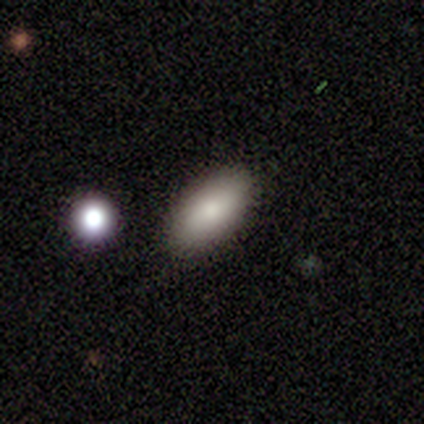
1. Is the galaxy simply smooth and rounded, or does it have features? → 100% smooth, 0% featured or disk, 0% star or artifact.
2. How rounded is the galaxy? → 86% in between, 14% cigar-shaped, 0% round.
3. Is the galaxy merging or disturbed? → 100% none, 0% minor disturbance, 0% major disturbance, 0% merger.